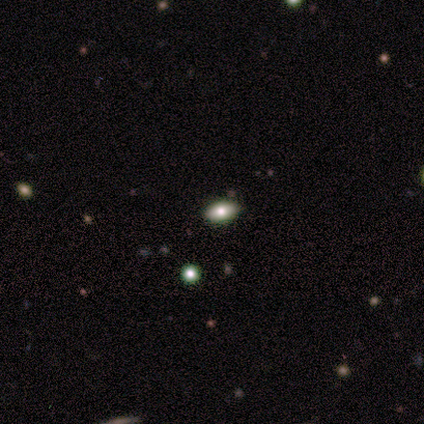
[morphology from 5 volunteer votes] This is clearly a smooth galaxy (100%). How rounded: clearly in between (100%). Merging: clearly none (80%).